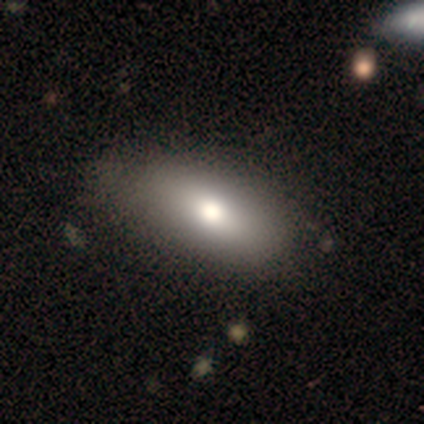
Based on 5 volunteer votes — smooth 60%, featured or disk 40%, star or artifact 0%. Down the decision tree: how rounded — in between (67%); merging — none (60%).